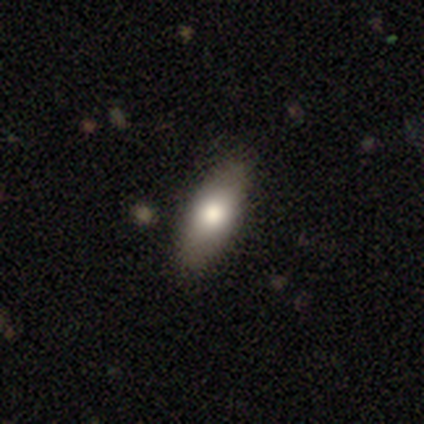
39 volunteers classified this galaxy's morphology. smooth 72%, featured or disk 18%, star or artifact 10%. Down the decision tree: how rounded — in between (75%); merging — none (80%).